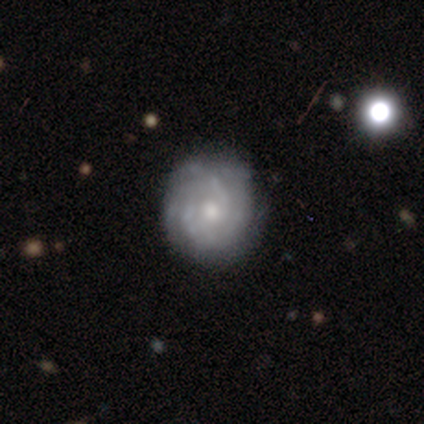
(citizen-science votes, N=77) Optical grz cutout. It shows a featured or disk galaxy (90%) with no bar (88%), tight (74%) spiral arms (96%) and a small central bulge (48%). Merging: none (45%).